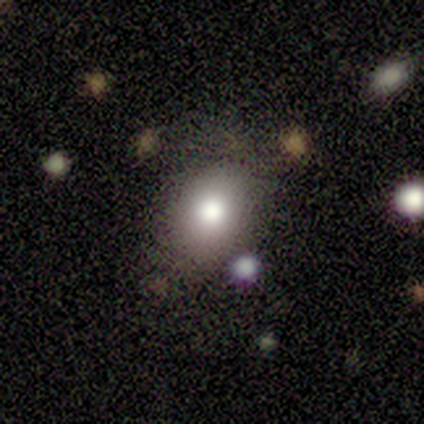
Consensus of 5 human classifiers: This appears to be a smooth galaxy with no disk features (100%) that is in between round and cigar-shaped (100%). Merging: none (80%).